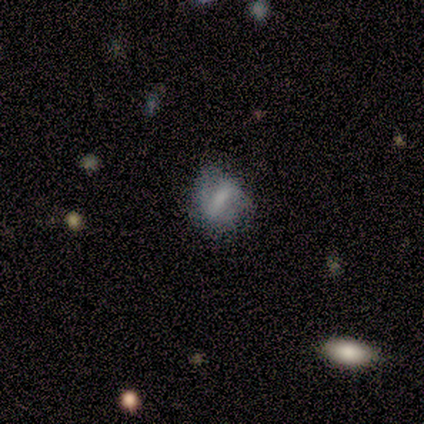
smooth-or-featured: smooth: 42% (tied) | featured or disk: 42% (tied) | star or artifact: 17%
  how-rounded: in between: 60% | round: 40% | cigar-shaped: 0%
  merging: none: 60% | minor disturbance: 30% | major disturbance: 10% | merger: 0%